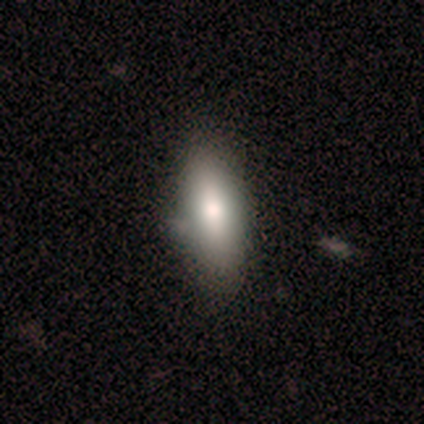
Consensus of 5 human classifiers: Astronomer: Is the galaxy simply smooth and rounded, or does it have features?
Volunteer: smooth — 80%.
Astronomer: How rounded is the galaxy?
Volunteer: in between — 100%.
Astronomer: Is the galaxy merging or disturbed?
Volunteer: none — 100%.